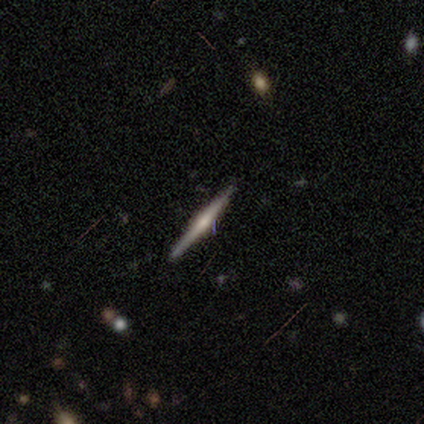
Morphology: type=featured or disk (60%); edge-on=yes (100%); edge-on bulge=rounded (100%); merging=none (100%).